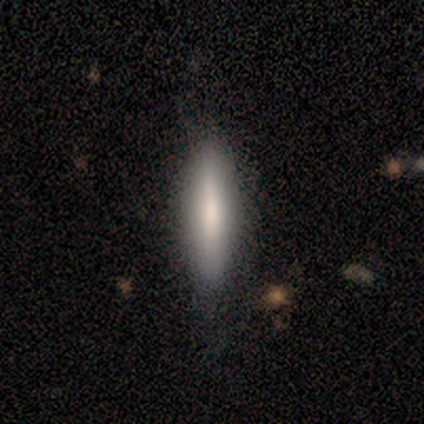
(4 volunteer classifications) A smooth galaxy with no disk features (100%) that is cigar-shaped (100%).

Vote fractions:
- Smooth or featured? smooth: 100% / featured or disk: 0% / star or artifact: 0%
- How rounded? cigar-shaped: 100% / round: 0% / in between: 0%
- Merging? none: 100% / minor disturbance: 0% / major disturbance: 0% / merger: 0%